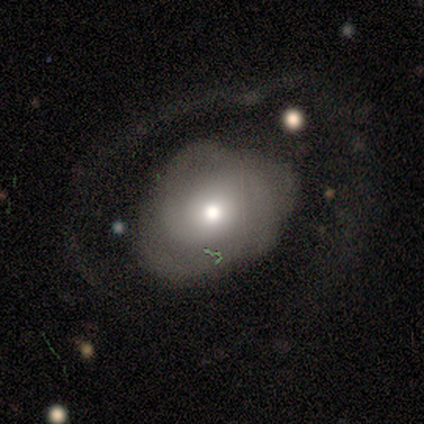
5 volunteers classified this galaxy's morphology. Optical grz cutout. It shows a featured or disk galaxy (40%, tied with star or artifact) with no bar (100%), no spiral arms (100%) and a moderate central bulge (100%). Merging: minor disturbance (33%, tied with major disturbance and merger).